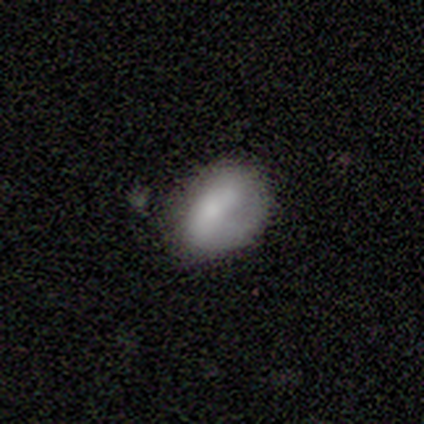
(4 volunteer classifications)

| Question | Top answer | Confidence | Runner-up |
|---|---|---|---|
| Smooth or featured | featured or disk | 75% | smooth (25%) |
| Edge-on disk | no | 100% | — |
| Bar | strong | 67% | weak (33%) |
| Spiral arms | no | 67% | yes (33%) |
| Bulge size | large | 33% | tied: small (33%), none (33%) |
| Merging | minor disturbance | 75% | none (25%) |